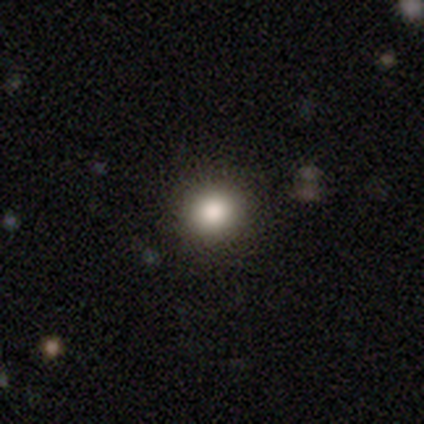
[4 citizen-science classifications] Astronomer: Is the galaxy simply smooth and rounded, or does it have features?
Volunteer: smooth — 100%.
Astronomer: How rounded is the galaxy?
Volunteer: round — 100%.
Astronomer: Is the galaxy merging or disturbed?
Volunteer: none — 100%.